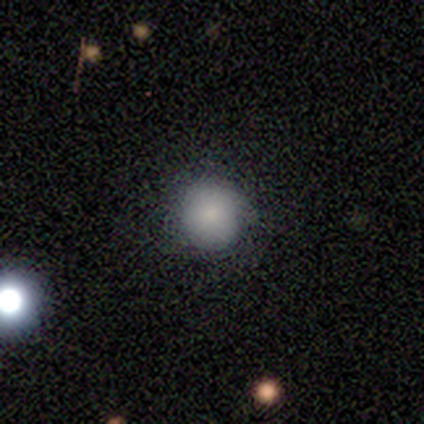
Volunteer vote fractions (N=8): Smooth or featured? 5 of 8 (62%) said smooth. How rounded? 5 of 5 (100%) said round. Merging? 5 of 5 (100%) said none.